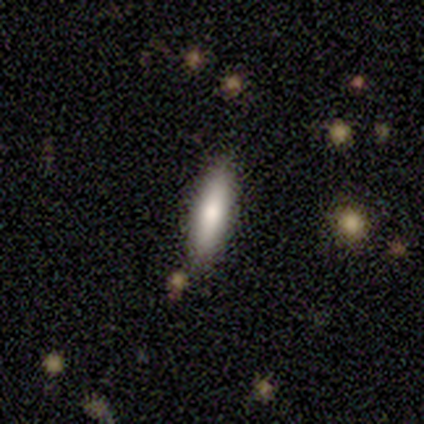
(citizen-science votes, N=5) Smooth or featured: smooth — 80% (featured or disk — 20%)
How rounded: cigar-shaped — 100%
Merging: none — 80% (minor disturbance — 20%)